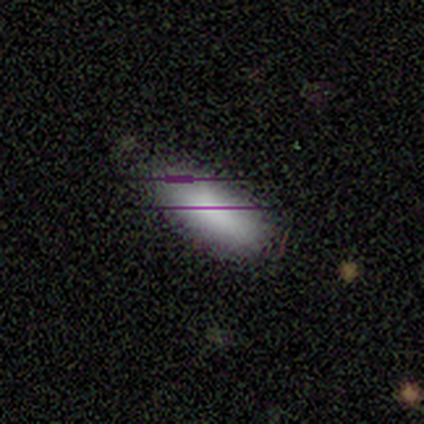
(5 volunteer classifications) Q: Smooth or featured?
A: smooth (80%); runner-up: star or artifact (20%)
Q: How rounded?
A: in between (75%); runner-up: cigar-shaped (25%)
Q: Merging?
A: none (50%); tied with: minor disturbance (50%)